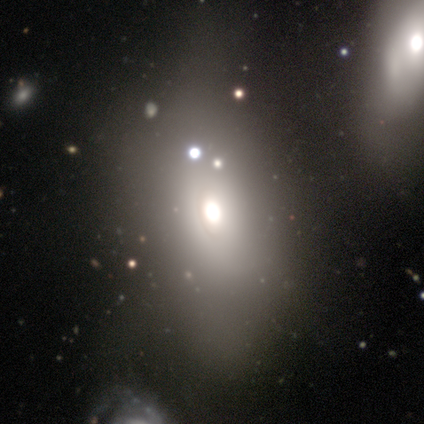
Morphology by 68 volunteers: smooth 60%, featured or disk 25%, star or artifact 15%. Down the decision tree: how rounded — in between (90%); merging — none (28%).